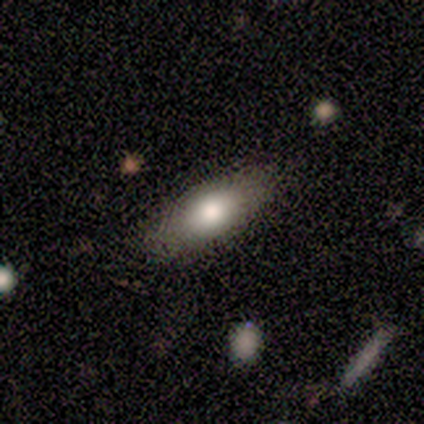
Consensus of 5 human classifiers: Smooth or featured?
  - smooth: 60% *
  - featured or disk: 40%
  - star or artifact: 0%
How rounded?
  - in between: 67% *
  - cigar-shaped: 33%
  - round: 0%
Merging?
  - none: 100% *
  - minor disturbance: 0%
  - major disturbance: 0%
  - merger: 0%